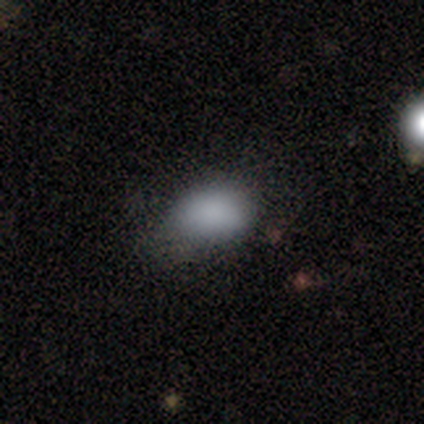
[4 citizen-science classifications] Morphology: type=smooth (75%); roundness=in between (100%); merging=none (67%).